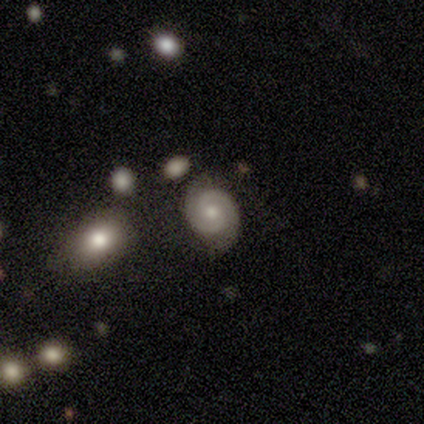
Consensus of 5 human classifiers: featured or disk 100%, smooth 0%, star or artifact 0%. Down the decision tree: edge-on disk — no (100%); bar — no (60%); spiral arms — yes (100%); spiral arm count — 2 (100%); spiral winding — tight (80%); bulge size — small (60%); merging — none (60%).